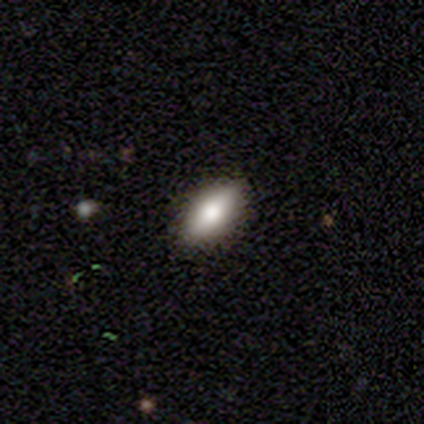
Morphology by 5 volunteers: smooth_or_featured: smooth (p=0.80) [alt: featured or disk p=0.20]
how_rounded: in between (p=1.00)
merging: none (p=1.00)